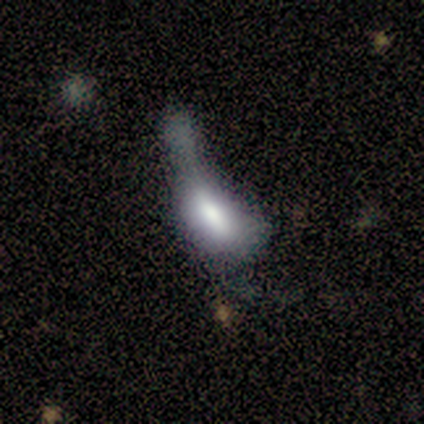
This appears to be a smooth galaxy with no disk features (67%) that is in between round and cigar-shaped (100%). Merging: major disturbance (67%).